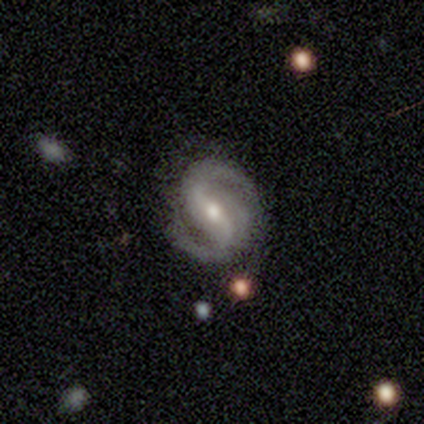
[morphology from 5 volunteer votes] Smooth or featured? 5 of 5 (100%) said featured or disk. Edge-on disk? 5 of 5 (100%) said no. Bar? 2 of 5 (40%, tied with weak) said strong. Spiral arms? 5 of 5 (100%) said yes. Spiral winding? 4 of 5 (80%) said medium. Spiral arm count? 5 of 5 (100%) said 2. Bulge size? 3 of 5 (60%) said small. Merging? 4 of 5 (80%) said none.